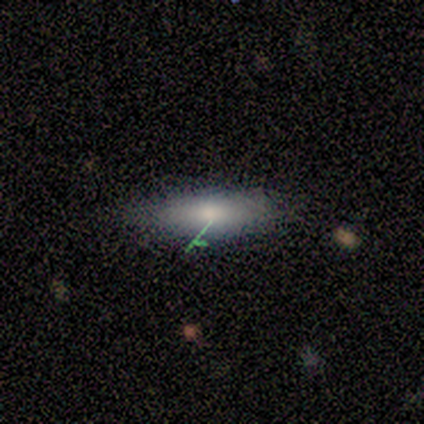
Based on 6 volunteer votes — This is likely a smooth galaxy (67%). How rounded: likely cigar-shaped (75%). Merging: clearly none (100%).